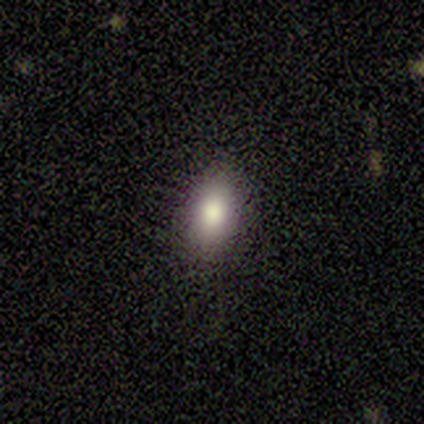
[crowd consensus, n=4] Volunteers were most divided on "merging": none: 75%, minor disturbance: 25%, major disturbance: 0%, merger: 0%. More confident: smooth or featured — smooth (100%); how rounded — in between (100%).